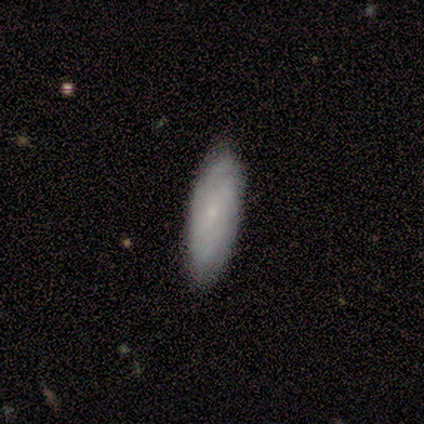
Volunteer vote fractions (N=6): smooth 67%, featured or disk 33%, star or artifact 0%. Down the decision tree: how rounded — in between (75%); merging — none (100%).